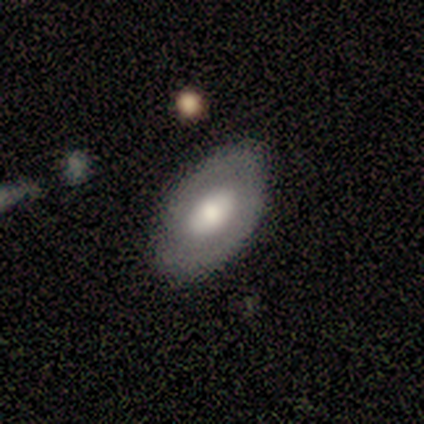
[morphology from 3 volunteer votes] A featured or disk galaxy (67%) with no bar (100%), no spiral arms (100%) and a large central bulge (50%, tied with moderate).

Vote fractions:
- Smooth or featured? featured or disk: 67% / smooth: 33% / star or artifact: 0%
- Edge-on disk? no: 100% / yes: 0%
- Bar? no: 100% / strong: 0% / weak: 0%
- Spiral arms? no: 100% / yes: 0%
- Bulge size? large: 50% (tied) / moderate: 50% (tied) / dominant: 0% / small: 0% / none: 0%
- Merging? none: 100% / minor disturbance: 0% / major disturbance: 0% / merger: 0%